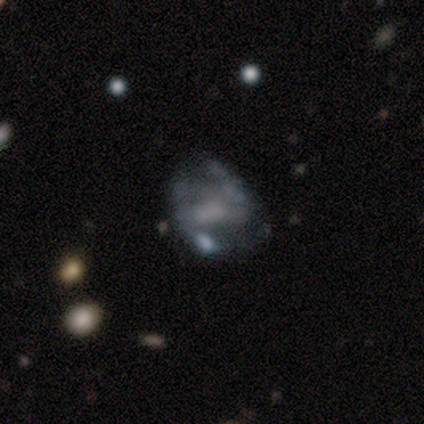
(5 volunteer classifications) Smooth or featured? 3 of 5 (60%) said featured or disk. Edge-on disk? 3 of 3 (100%) said no. Bar? 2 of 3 (67%) said strong. Spiral arms? 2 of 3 (67%) said yes. Spiral winding? 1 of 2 (50%, tied with loose) said medium. Spiral arm count? 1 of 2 (50%, tied with 3) said 2. Bulge size? 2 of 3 (67%) said none. Merging? 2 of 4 (50%, tied with major disturbance) said none.